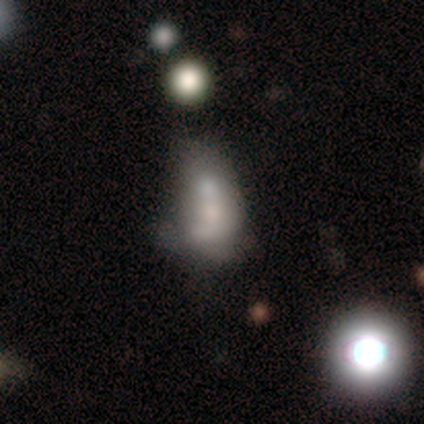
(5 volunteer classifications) Q: Smooth or featured?
A: featured or disk (60%); runner-up: smooth (40%)
Q: Edge-on disk?
A: no (100%)
Q: Bar?
A: strong (33%); tied with: weak (33%); no (33%)
Q: Spiral arms?
A: no (100%)
Q: Bulge size?
A: dominant (33%); tied with: large (33%); none (33%)
Q: Merging?
A: none (40%); tied with: major disturbance (40%)